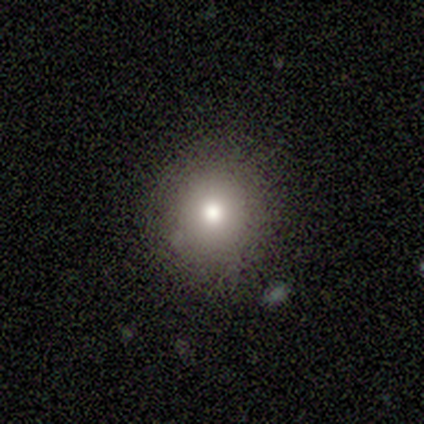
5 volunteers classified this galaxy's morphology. A smooth galaxy with no disk features (100%) that is round (80%). Merging: none (80%).